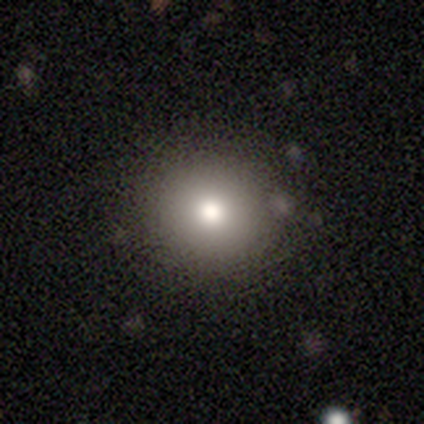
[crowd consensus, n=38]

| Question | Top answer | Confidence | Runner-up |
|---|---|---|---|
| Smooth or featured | smooth | 82% | featured or disk (13%) |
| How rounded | round | 90% | in between (6%) |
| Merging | none | 94% | minor disturbance (3%) |